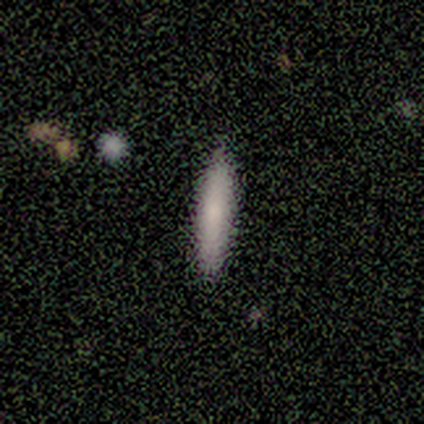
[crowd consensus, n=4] smooth 100%, featured or disk 0%, star or artifact 0%. Down the decision tree: how rounded — cigar-shaped (100%); merging — none (100%).